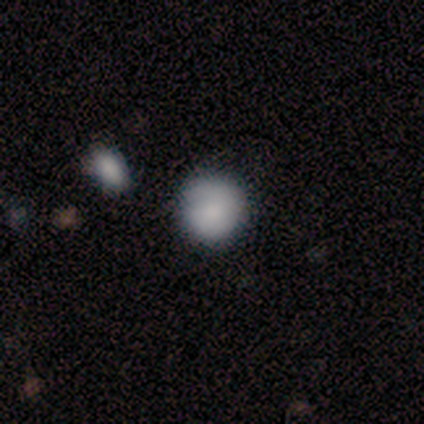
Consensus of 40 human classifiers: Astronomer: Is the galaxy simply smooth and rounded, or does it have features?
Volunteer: smooth — 78%.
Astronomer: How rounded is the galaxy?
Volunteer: round — 94%.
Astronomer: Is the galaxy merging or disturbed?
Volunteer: none — 80%.